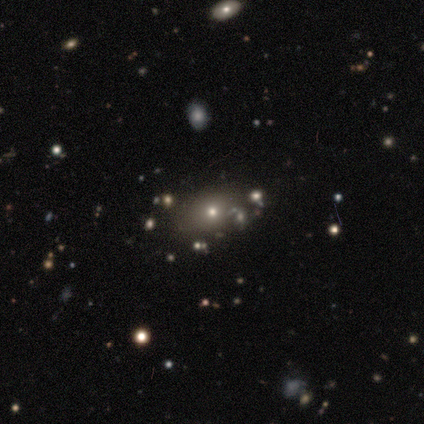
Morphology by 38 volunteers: A smooth galaxy with no disk features (61%) that is in between round and cigar-shaped (78%).

Vote fractions:
- Smooth or featured? smooth: 61% / featured or disk: 21% / star or artifact: 18%
- How rounded? in between: 78% / round: 22% / cigar-shaped: 0%
- Merging? none: 84% / minor disturbance: 10% / major disturbance: 3% / merger: 3%